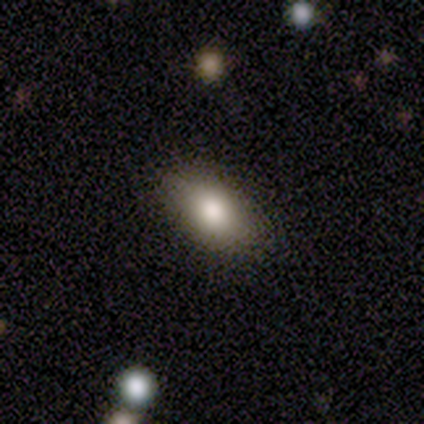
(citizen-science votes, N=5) smooth-or-featured: smooth: 80% | star or artifact: 20% | featured or disk: 0%
  how-rounded: in between: 75% | round: 25% | cigar-shaped: 0%
  merging: none: 75% | minor disturbance: 25% | major disturbance: 0% | merger: 0%